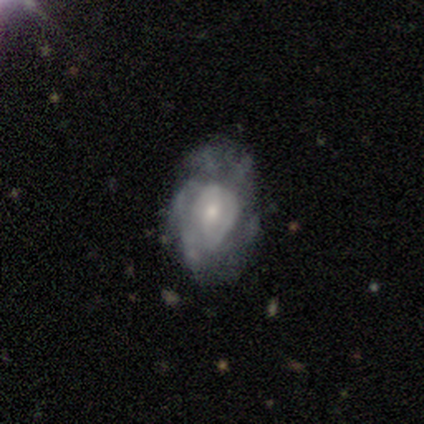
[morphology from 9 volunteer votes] Smooth or featured? 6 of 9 (67%) said featured or disk. Edge-on disk? 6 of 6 (100%) said no. Bar? 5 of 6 (83%) said no. Spiral arms? 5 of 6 (83%) said yes. Spiral winding? 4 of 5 (80%) said medium. Spiral arm count? 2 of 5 (40%) said can't tell. Bulge size? 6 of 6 (100%) said small. Merging? 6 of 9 (67%) said none.